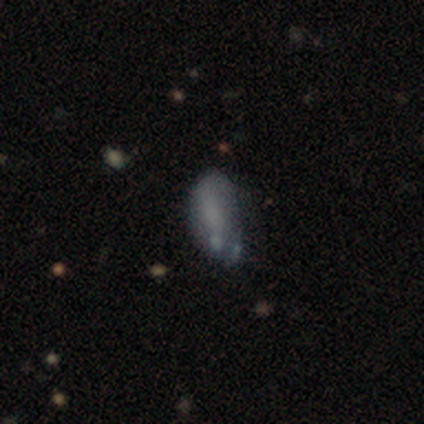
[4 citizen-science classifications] A smooth galaxy with no disk features (75%) that is in between round and cigar-shaped (100%).

Vote fractions:
- Smooth or featured? smooth: 75% / featured or disk: 25% / star or artifact: 0%
- How rounded? in between: 100% / round: 0% / cigar-shaped: 0%
- Merging? none: 50% / minor disturbance: 25% / merger: 25% / major disturbance: 0%